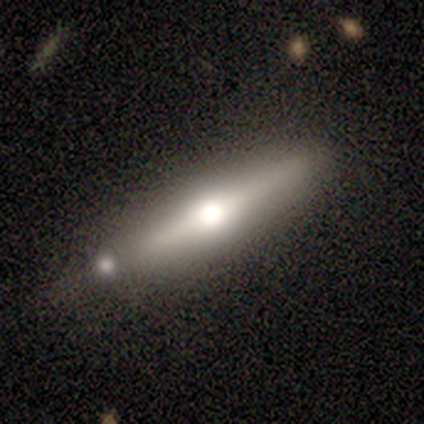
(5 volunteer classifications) A featured or disk galaxy (80%) viewed edge-on (100%) with a rounded central bulge (100%). Merging: none (40%, tied with minor disturbance).